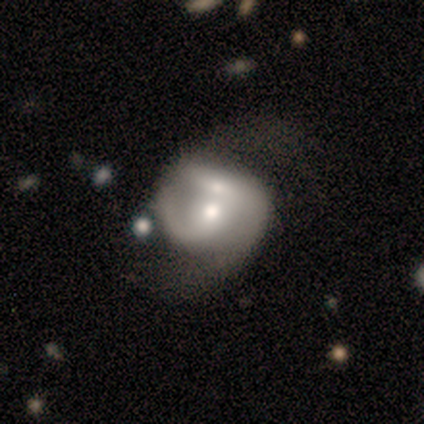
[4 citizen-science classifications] Volunteers were most divided on "spiral winding" (3-way tie): tight: 33%, medium: 33%, loose: 33%; "merging" (3-way tie): none: 33%, major disturbance: 33%, merger: 33%, minor disturbance: 0%. More confident: edge-on disk — no (100%); spiral arms — yes (100%); smooth or featured — featured or disk (75%); bar — weak (67%); spiral arm count — 2 (67%); bulge size — small (67%).